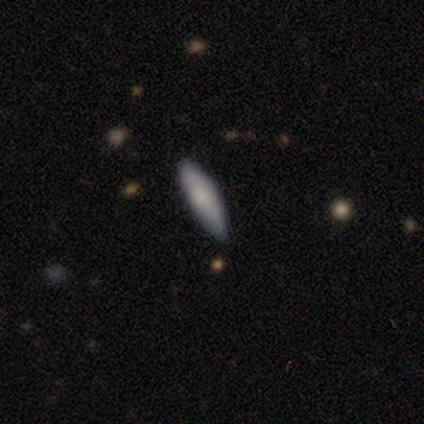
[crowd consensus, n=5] Morphology: type=smooth (80%); roundness=cigar-shaped (75%); merging=none (80%).